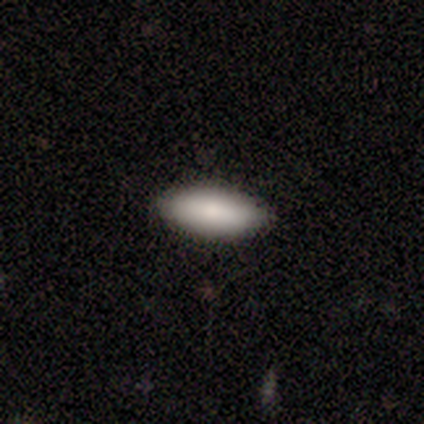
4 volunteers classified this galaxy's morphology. Smooth or featured? 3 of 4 (75%) said smooth. How rounded? 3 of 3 (100%) said in between. Merging? 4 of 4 (100%) said none.